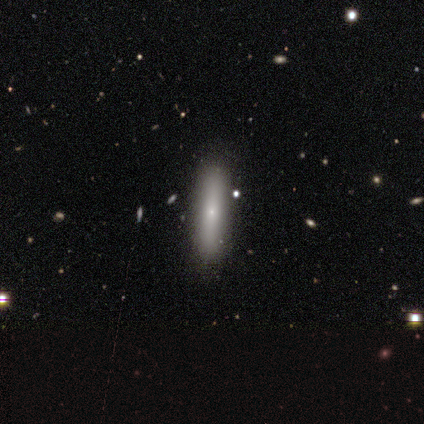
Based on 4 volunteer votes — Morphology: type=featured or disk (75%); edge-on=yes (100%); edge-on bulge=rounded (67%); merging=none (75%).